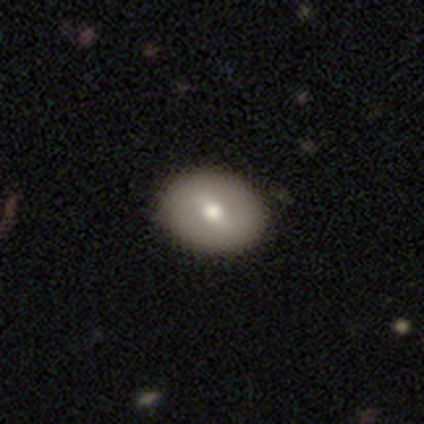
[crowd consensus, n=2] This appears to be a featured or disk galaxy (100%) with a weak bar (50%, tied with no), no spiral arms (100%) and a moderate central bulge (50%, tied with small). Merging: none (100%).